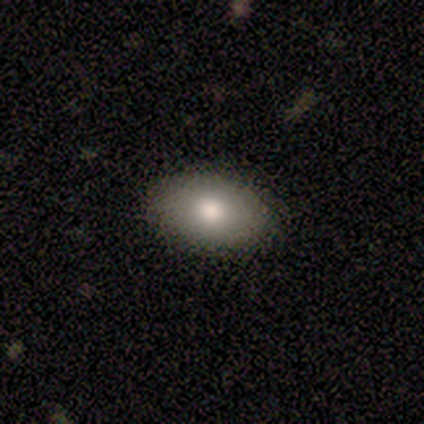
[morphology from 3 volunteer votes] Smooth or featured?
  - smooth: 67% *
  - featured or disk: 33%
  - star or artifact: 0%
How rounded?
  - in between: 100% *
  - round: 0%
  - cigar-shaped: 0%
Merging?
  - none: 100% *
  - minor disturbance: 0%
  - major disturbance: 0%
  - merger: 0%